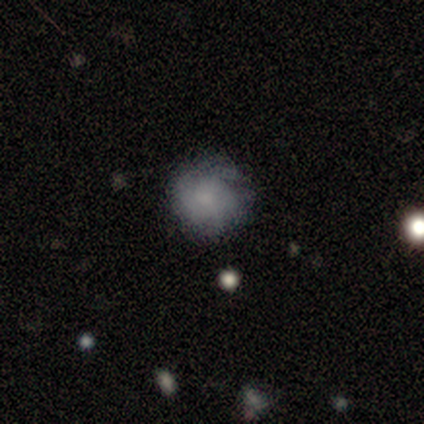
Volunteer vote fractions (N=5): This is clearly a smooth galaxy (100%). How rounded: clearly round (100%). Merging: clearly none (80%).